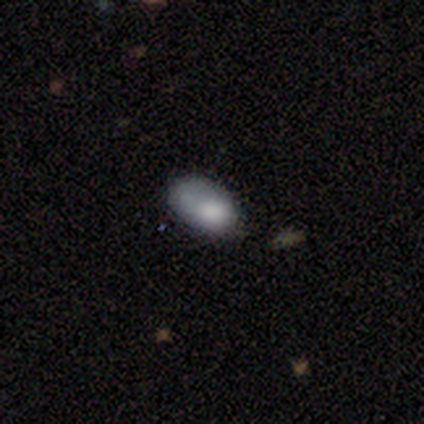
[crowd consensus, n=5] Smooth or featured? 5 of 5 (100%) said smooth. How rounded? 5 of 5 (100%) said in between. Merging? 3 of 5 (60%) said none.